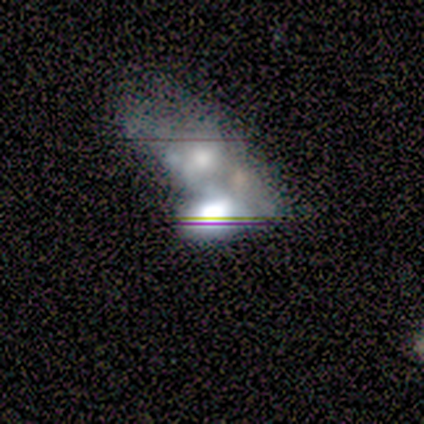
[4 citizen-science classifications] Q: Smooth or featured?
A: featured or disk (50%); runner-up: smooth (25%)
Q: Edge-on disk?
A: yes (50%); tied with: no (50%)
Q: Edge-on bulge?
A: boxy (100%)
Q: Merging?
A: merger (100%)